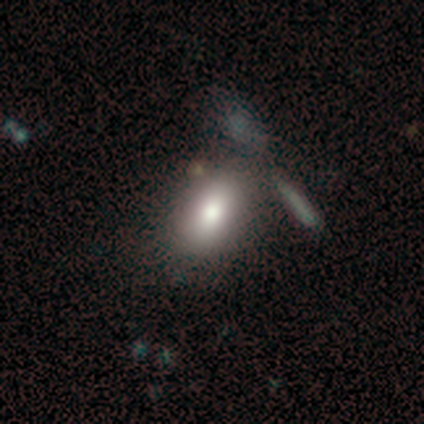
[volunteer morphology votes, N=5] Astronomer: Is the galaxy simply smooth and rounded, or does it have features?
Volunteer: smooth — 60% (runner-up: star or artifact, 40%).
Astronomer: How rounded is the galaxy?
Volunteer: in between — 67%.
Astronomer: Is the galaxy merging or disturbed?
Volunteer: minor disturbance — 67%.